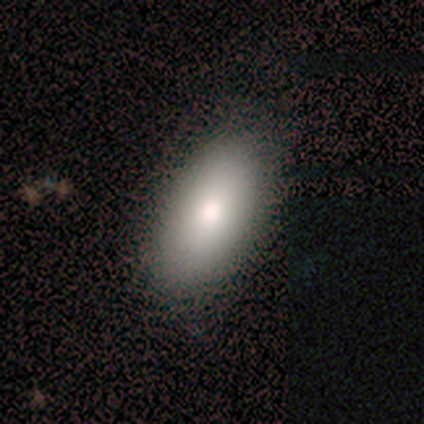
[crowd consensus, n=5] smooth 100%, featured or disk 0%, star or artifact 0%. Down the decision tree: how rounded — in between (100%); merging — none (80%).